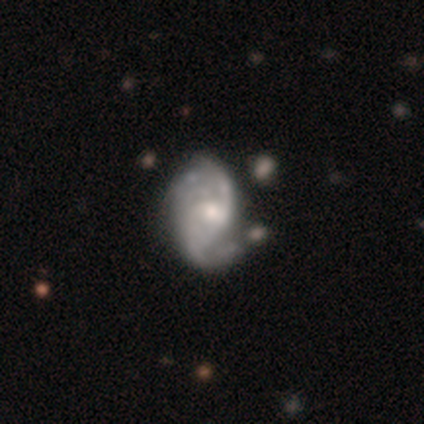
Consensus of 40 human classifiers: smooth_or_featured: featured or disk (p=0.85) [alt: smooth p=0.07]
disk_edge_on: no (p=0.97) [alt: yes p=0.03]
bar: weak (p=0.48) [alt: no p=0.45]
has_spiral_arms: yes (p=0.94) [alt: no p=0.06]
spiral_winding: medium (p=0.42) [alt: loose p=0.39]
spiral_arm_count: 2 (p=0.61) [alt: can't tell p=0.23]
bulge_size: moderate (p=0.55) [alt: small p=0.33]
merging: none (p=0.32) [alt: minor disturbance p=0.16]